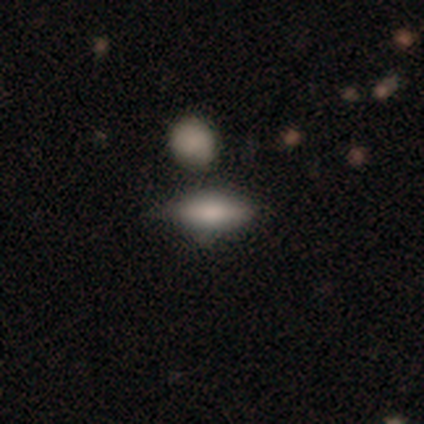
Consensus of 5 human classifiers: Smooth or featured? smooth (100%)
How rounded? in between (80%)
Merging? none (80%)